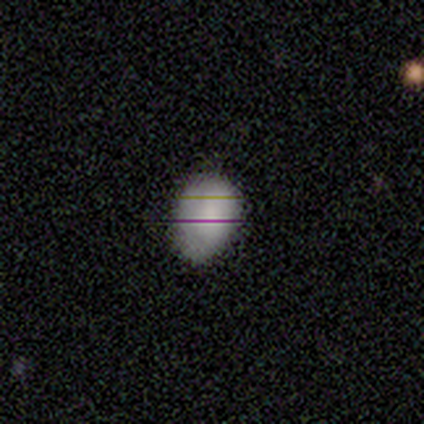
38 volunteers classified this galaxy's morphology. Smooth or featured? smooth (84%)
How rounded? in between (69%)
Merging? none (71%)